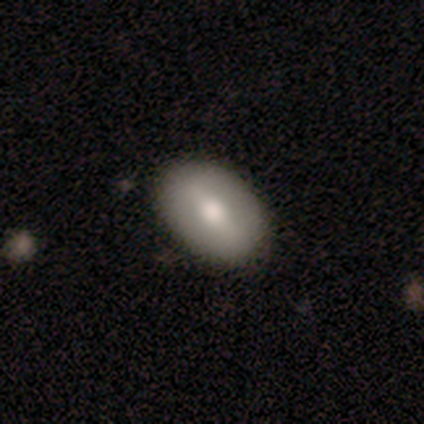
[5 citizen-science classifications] This appears to be a smooth galaxy with no disk features (60%) that is in between round and cigar-shaped (100%). Merging: none (100%).